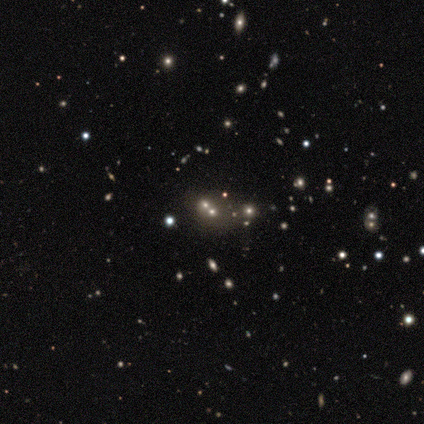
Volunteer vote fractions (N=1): Smooth or featured: star or artifact — 100%